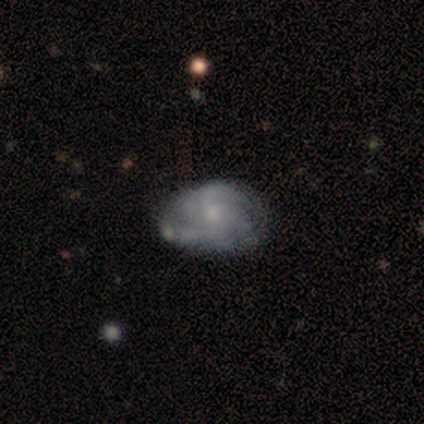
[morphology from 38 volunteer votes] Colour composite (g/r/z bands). It shows a featured or disk galaxy (82%) with no bar (84%), 2 (55%) medium (45%) spiral arms (65%) and a small central bulge (55%). Merging: none (53%).